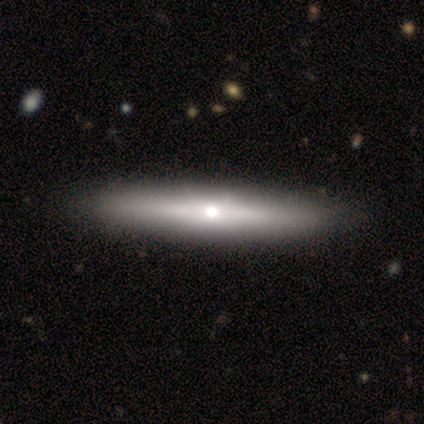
Smooth or featured? 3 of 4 (75%) said smooth. How rounded? 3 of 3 (100%) said cigar-shaped. Merging? 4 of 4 (100%) said none.